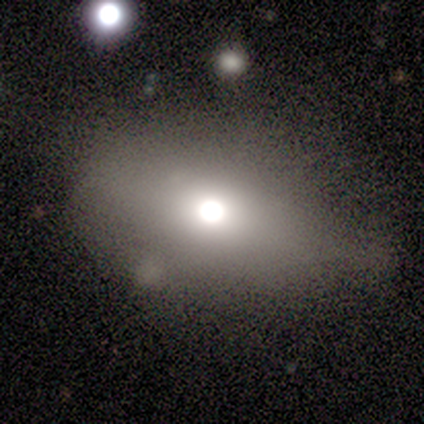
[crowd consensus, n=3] This appears to be a smooth galaxy with no disk features (67%) that is in between round and cigar-shaped (100%). Merging: none (67%).